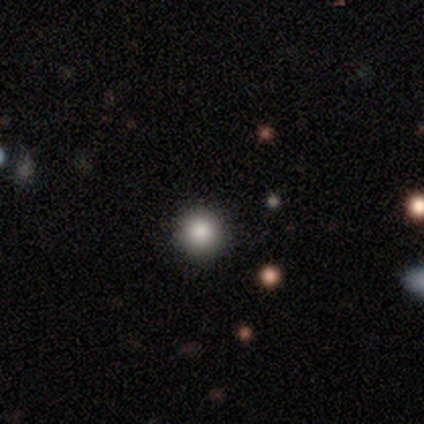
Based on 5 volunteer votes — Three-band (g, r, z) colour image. It shows a smooth galaxy with no disk features (80%) that is round (100%). Merging: none (100%).